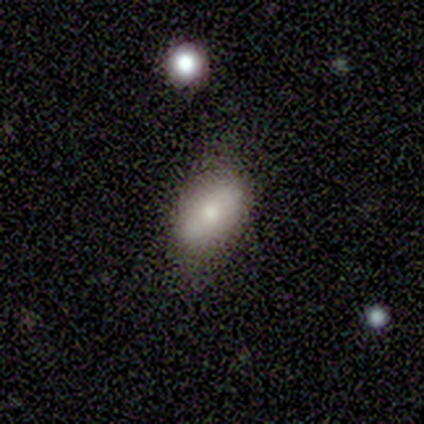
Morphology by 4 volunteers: smooth-or-featured: smooth: 75% | featured or disk: 25% | star or artifact: 0%
  how-rounded: in between: 100% | round: 0% | cigar-shaped: 0%
  merging: none: 75% | minor disturbance: 25% | major disturbance: 0% | merger: 0%